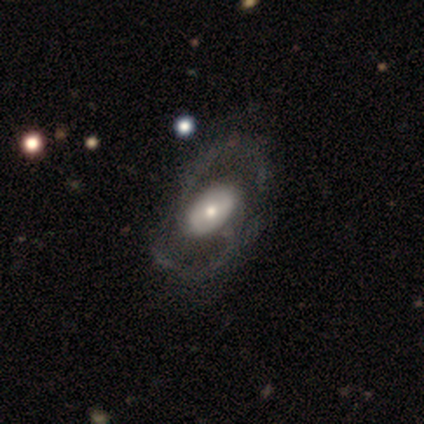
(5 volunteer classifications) This appears to be a featured or disk galaxy (100%) with no bar (60%), no spiral arms (60%) and a large central bulge (40%, tied with moderate). Merging: none (40%, tied with minor disturbance).